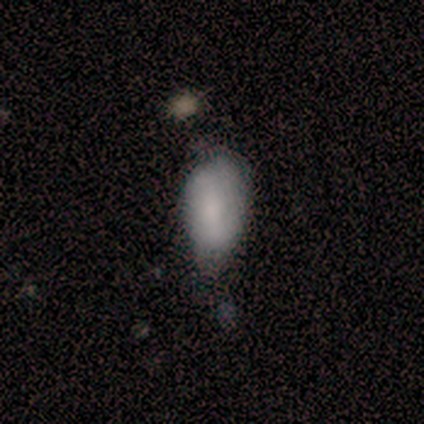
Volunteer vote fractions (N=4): A smooth galaxy with no disk features (75%) that is in between round and cigar-shaped (67%).

Vote fractions:
- Smooth or featured? smooth: 75% / star or artifact: 25% / featured or disk: 0%
- How rounded? in between: 67% / round: 33% / cigar-shaped: 0%
- Merging? none: 67% / minor disturbance: 33% / major disturbance: 0% / merger: 0%